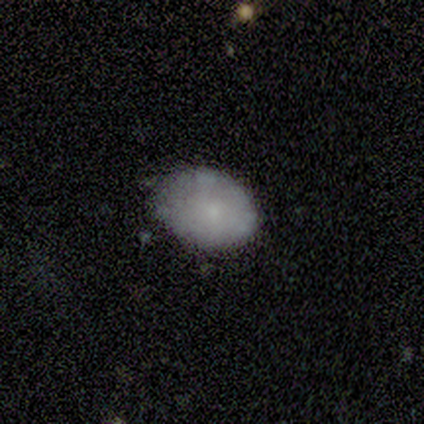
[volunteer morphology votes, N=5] A smooth galaxy with no disk features (80%) that is round (50%, tied with in between). Merging: minor disturbance (75%).